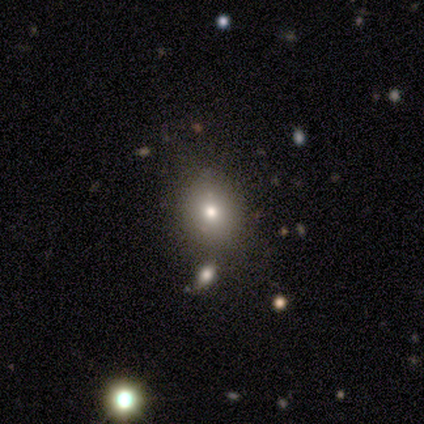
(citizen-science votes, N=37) This appears to be a smooth galaxy with no disk features (62%) that is round (74%). Merging: none (82%).